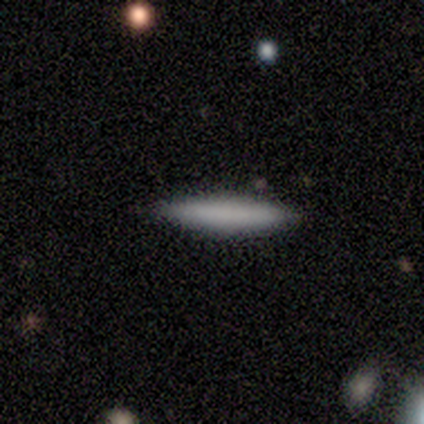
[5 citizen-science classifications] Overall: smooth (60%; featured or disk 20%). How rounded: cigar-shaped (100%). Merging: none (75%).